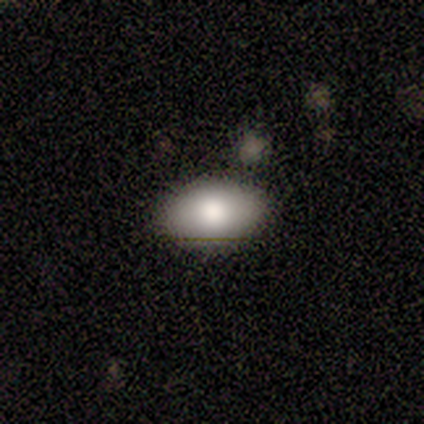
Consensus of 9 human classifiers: A smooth galaxy with no disk features (78%) that is in between round and cigar-shaped (100%). Merging: none (56%).